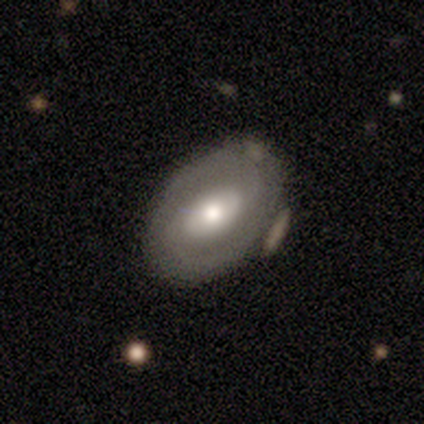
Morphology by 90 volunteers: Volunteers were most divided on "bar": no: 45%, weak: 35%, strong: 20%. More confident: edge-on disk — no (95%); spiral arms — yes (76%); merging — none (72%); spiral arm count — 2 (67%); smooth or featured — featured or disk (64%); bulge size — moderate (64%); spiral winding — tight (50%).